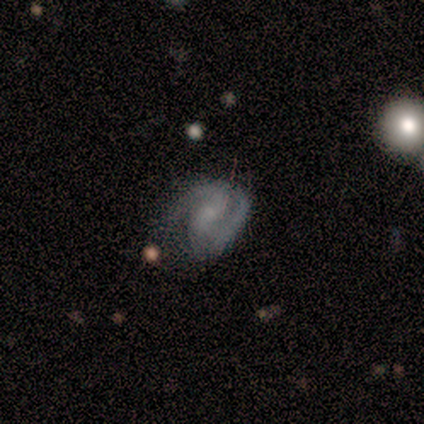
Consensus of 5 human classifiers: Smooth or featured: featured or disk — 100%
Edge-on disk: no — 100%
Bar: weak — 60% (no — 40%)
Spiral arms: yes — 100%
Spiral winding: medium — 60% (tight — 40%)
Spiral arm count: 2 — 80% (1 — 20%)
Bulge size: small — 60% (moderate — 40%)
Merging: none — 80% (minor disturbance — 20%)